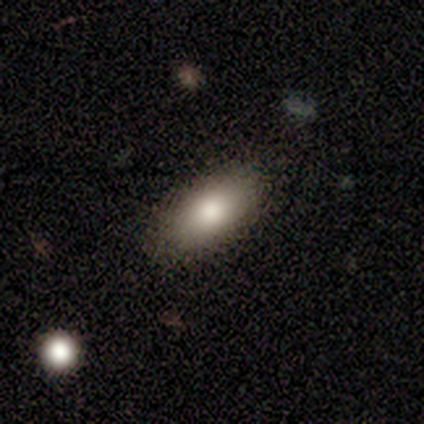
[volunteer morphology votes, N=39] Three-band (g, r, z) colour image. It shows a smooth galaxy with no disk features (72%) that is in between round and cigar-shaped (93%). Merging: none (65%).